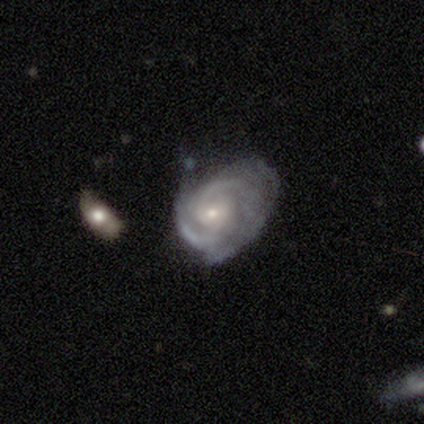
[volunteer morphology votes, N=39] Volunteers were most divided on "merging": none: 38%, minor disturbance: 32%, major disturbance: 22%, merger: 8%. Remaining: edge-on disk — no (100%); spiral arms — yes (100%); smooth or featured — featured or disk (90%); bulge size — small (71%); bar — no (66%); spiral winding — tight (63%); spiral arm count — 2 (46%).